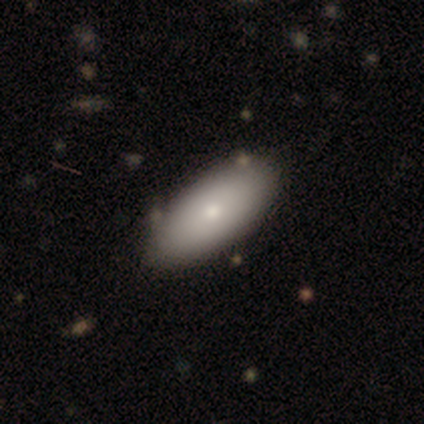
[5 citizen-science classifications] A smooth galaxy with no disk features (80%) that is in between round and cigar-shaped (100%).

Vote fractions:
- Smooth or featured? smooth: 80% / featured or disk: 20% / star or artifact: 0%
- How rounded? in between: 100% / round: 0% / cigar-shaped: 0%
- Merging? none: 80% / minor disturbance: 20% / major disturbance: 0% / merger: 0%